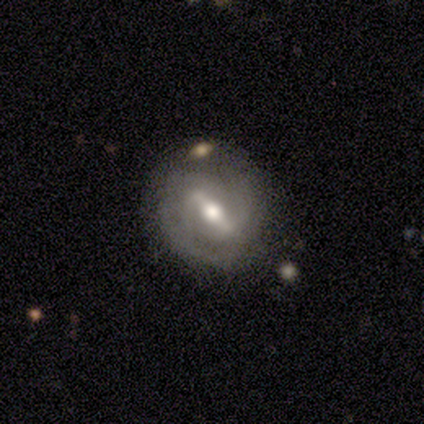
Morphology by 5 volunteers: This appears to be a featured or disk galaxy (100%) with a weak bar (60%), 2 (100%) medium (60%) spiral arms (100%) and a moderate central bulge (80%). Merging: none (80%).